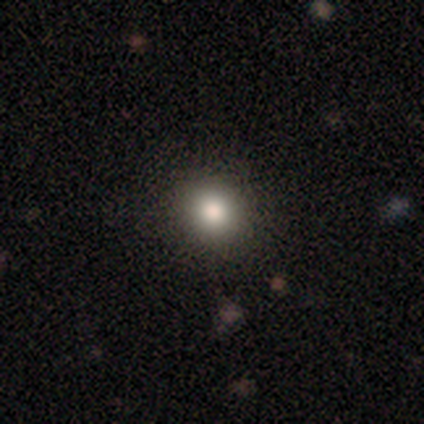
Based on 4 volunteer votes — This appears to be a smooth galaxy with no disk features (100%) that is round (75%). Merging: none (100%).